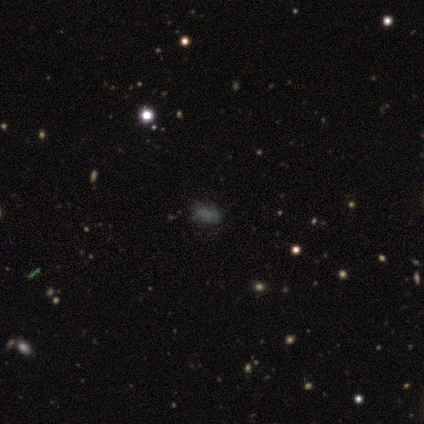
smooth 75%, star or artifact 25%, featured or disk 0%. Down the decision tree: how rounded — in between (67%); merging — none (100%).